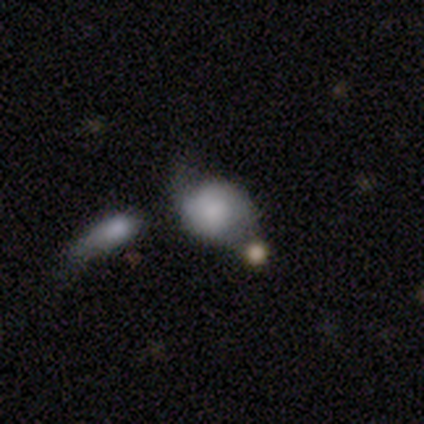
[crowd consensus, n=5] Morphology: type=featured or disk (60%); edge-on=no (100%); bar=no (67%); spiral arms=no (67%); bulge=small (67%); merging=none (50%).